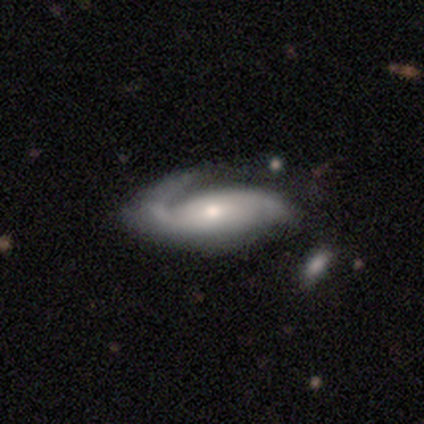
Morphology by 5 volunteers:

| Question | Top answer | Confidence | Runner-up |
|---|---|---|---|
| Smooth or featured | featured or disk | 100% | — |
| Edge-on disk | no | 100% | — |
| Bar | no | 80% | strong (20%) |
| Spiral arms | yes | 100% | — |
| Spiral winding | tight | 40% | tied: loose (40%) |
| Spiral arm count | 2 | 80% | 1 (20%) |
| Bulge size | small | 80% | moderate (20%) |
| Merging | major disturbance | 60% | none (40%) |